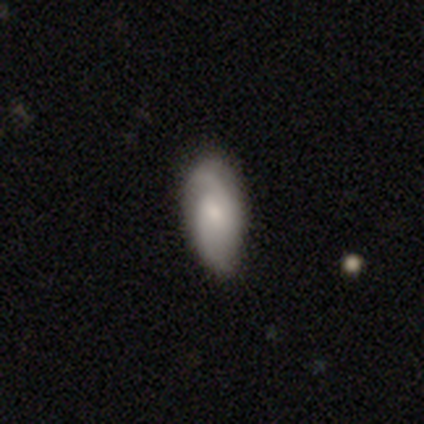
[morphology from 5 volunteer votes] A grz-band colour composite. It shows a featured or disk galaxy (60%) with a weak bar (50%, tied with no), 2 (100%) medium (100%) spiral arms (100%) and a small central bulge (100%). Merging: none (60%).